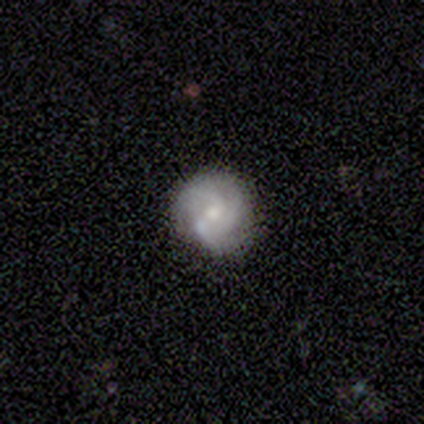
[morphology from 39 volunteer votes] Volunteers were most divided on "bar" (2-way tie): weak: 46%, no: 46%, strong: 8%. Remaining: edge-on disk — no (100%); spiral arms — yes (88%); merging — none (79%); smooth or featured — featured or disk (62%); bulge size — moderate (50%); spiral arm count — 2 (48%); spiral winding — medium (48%).